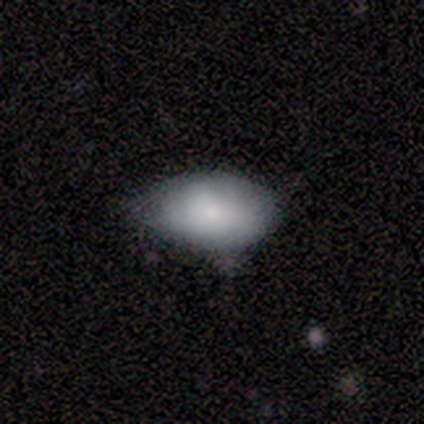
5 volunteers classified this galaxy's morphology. Overall: smooth (80%). How rounded: in between (100%). Merging: none (60%; minor disturbance 40%).